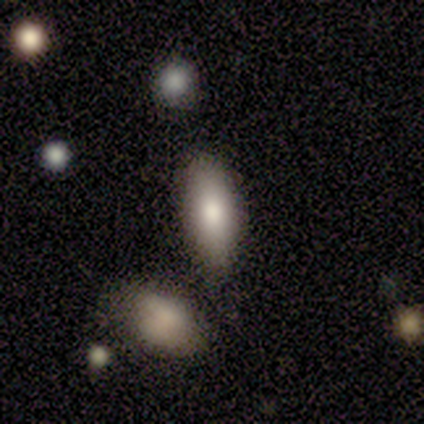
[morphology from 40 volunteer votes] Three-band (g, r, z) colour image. It shows a smooth galaxy with no disk features (78%) that is in between round and cigar-shaped (87%). Merging: none (56%).